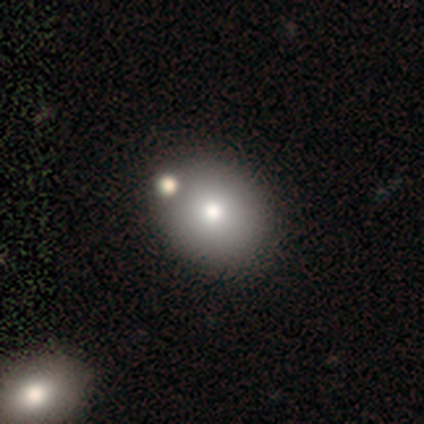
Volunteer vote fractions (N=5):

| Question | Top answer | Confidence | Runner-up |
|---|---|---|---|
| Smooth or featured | smooth | 60% | star or artifact (40%) |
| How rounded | in between | 100% | — |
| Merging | none | 67% | minor disturbance (33%) |